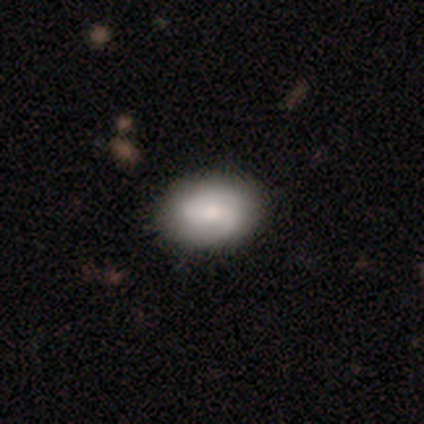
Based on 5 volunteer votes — A featured or disk galaxy (60%) with no bar (100%), 2 (100%) medium (67%) spiral arms (100%) and a moderate central bulge (100%). Merging: none (100%).